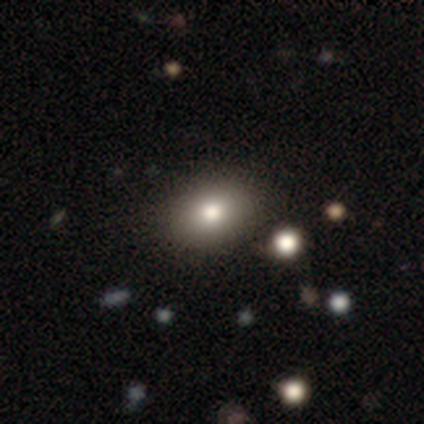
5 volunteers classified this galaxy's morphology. A smooth galaxy with no disk features (100%) that is in between round and cigar-shaped (80%).

Vote fractions:
- Smooth or featured? smooth: 100% / featured or disk: 0% / star or artifact: 0%
- How rounded? in between: 80% / round: 20% / cigar-shaped: 0%
- Merging? none: 80% / minor disturbance: 20% / major disturbance: 0% / merger: 0%